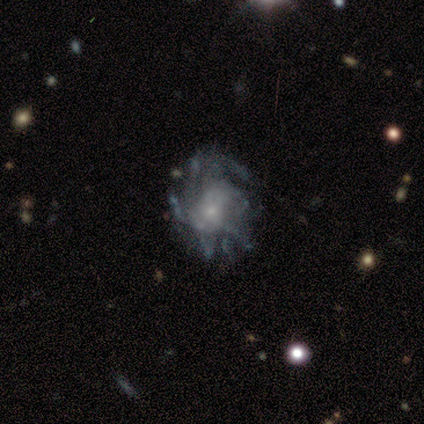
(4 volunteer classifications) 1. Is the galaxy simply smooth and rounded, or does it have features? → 100% featured or disk, 0% smooth, 0% star or artifact.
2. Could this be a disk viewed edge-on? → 75% no, 25% yes.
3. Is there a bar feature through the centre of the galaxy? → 67% no, 33% weak, 0% strong.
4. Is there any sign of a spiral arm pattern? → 67% yes, 33% no.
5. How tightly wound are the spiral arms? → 50% medium (tied), 50% loose (tied), 0% tight.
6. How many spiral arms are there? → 50% 2 (tied), 50% more than 4 (tied), 0% 1, 0% 3, 0% 4, 0% can't tell.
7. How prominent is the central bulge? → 67% small, 33% moderate, 0% dominant, 0% large, 0% none.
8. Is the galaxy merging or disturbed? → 50% none (tied), 50% minor disturbance (tied), 0% major disturbance, 0% merger.